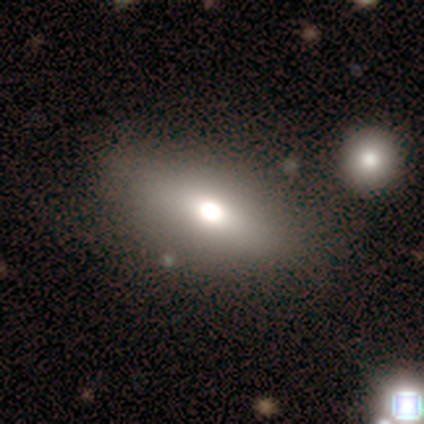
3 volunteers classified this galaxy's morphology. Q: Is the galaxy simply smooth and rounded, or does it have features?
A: featured or disk — 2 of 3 (67%).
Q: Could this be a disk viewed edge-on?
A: yes — 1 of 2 (50%, tied with no).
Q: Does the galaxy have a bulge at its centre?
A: rounded — 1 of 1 (100%).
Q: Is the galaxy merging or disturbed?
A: none — 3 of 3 (100%).